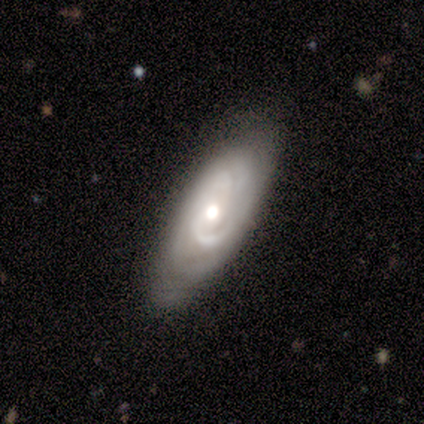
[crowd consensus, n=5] smooth_or_featured: featured or disk (p=1.00)
disk_edge_on: no (p=1.00)
bar: no (p=0.80) [alt: strong p=0.20]
has_spiral_arms: yes (p=1.00)
spiral_winding: tight (p=0.80) [alt: medium p=0.20]
spiral_arm_count: 2 (p=0.40) [tied with: can't tell p=0.40]
bulge_size: moderate (p=0.60) [alt: large p=0.40]
merging: none (p=1.00)